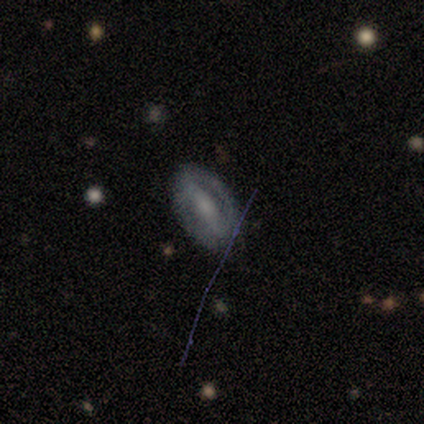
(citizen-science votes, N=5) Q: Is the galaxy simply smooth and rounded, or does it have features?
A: featured or disk — 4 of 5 (80%).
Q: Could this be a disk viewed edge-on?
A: no — 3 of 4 (75%).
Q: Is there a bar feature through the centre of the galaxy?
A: strong — 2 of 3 (67%).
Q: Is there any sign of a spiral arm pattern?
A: no — 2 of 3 (67%).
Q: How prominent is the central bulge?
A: small — 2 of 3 (67%).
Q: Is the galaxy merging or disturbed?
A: none — 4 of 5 (80%).